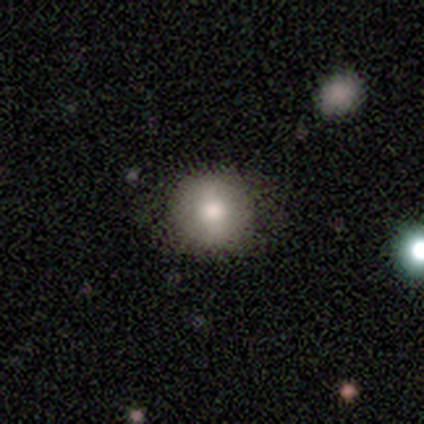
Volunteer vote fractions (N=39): Smooth or featured? 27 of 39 (69%) said smooth. How rounded? 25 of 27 (93%) said round. Merging? 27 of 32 (84%) said none.